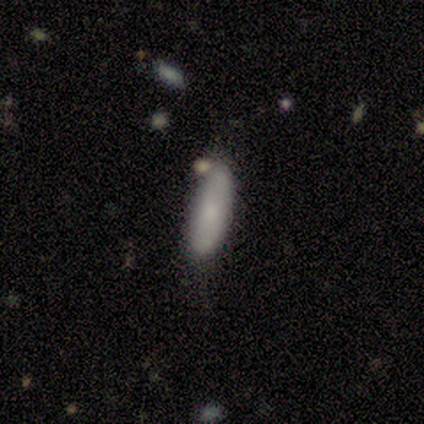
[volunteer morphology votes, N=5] type=smooth (100%); roundness=in between (80%); merging=none (60%).